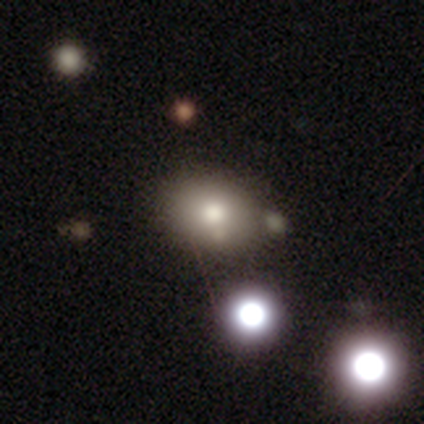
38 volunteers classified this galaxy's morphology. This appears to be a smooth galaxy with no disk features (79%) that is in between round and cigar-shaped (63%). Merging: none (81%).